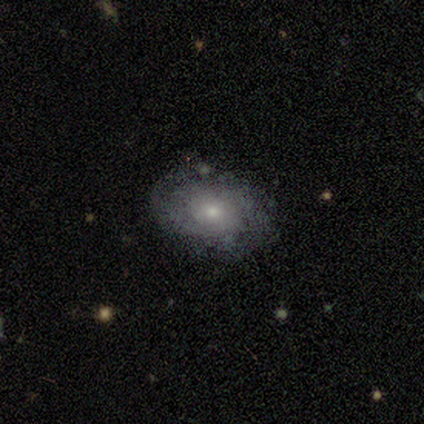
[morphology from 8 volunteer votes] This appears to be a featured or disk galaxy (62%) with no bar (100%), tight (100%) spiral arms (60%) and a small central bulge (60%). Merging: none (100%).